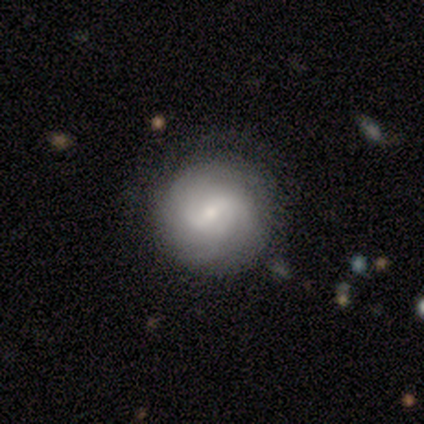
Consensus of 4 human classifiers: Volunteers were most divided on "spiral winding": tight: 67%, medium: 33%, loose: 0%. More confident: smooth or featured — featured or disk (100%); edge-on disk — no (100%); bar — weak (100%); merging — none (100%); spiral arms — yes (75%); bulge size — small (75%); spiral arm count — can't tell (67%).